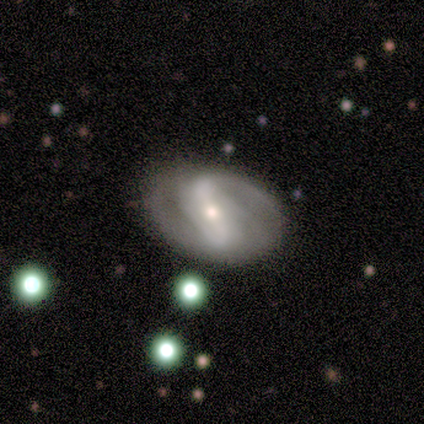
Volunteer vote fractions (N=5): Overall: featured or disk (80%). Edge-on disk: no (100%). Bar: weak (50%; strong 25%). Spiral arms: yes (100%). Spiral arm count: 2 (50%; 1 25%). Spiral winding: medium (75%). Bulge size: small (75%). Merging: none (100%).